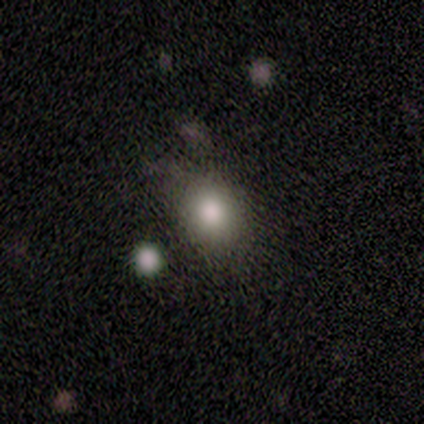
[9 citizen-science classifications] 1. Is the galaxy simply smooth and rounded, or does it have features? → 89% smooth, 11% featured or disk, 0% star or artifact.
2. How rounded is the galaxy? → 75% in between, 25% round, 0% cigar-shaped.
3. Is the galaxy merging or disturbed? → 56% none, 33% minor disturbance, 11% merger, 0% major disturbance.